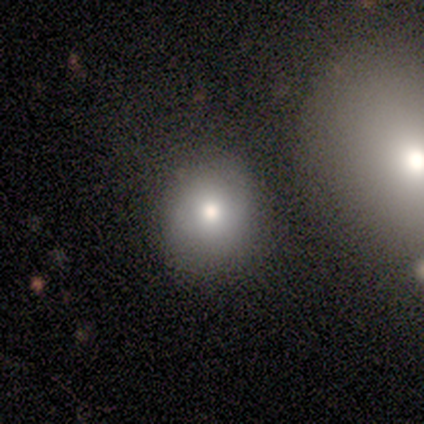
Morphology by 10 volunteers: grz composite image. It shows a smooth galaxy with no disk features (90%) that is round (100%). Merging: none (89%).